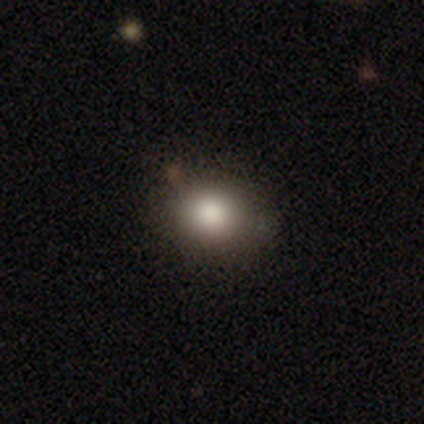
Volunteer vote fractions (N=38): A smooth galaxy with no disk features (89%) that is round (68%).

Vote fractions:
- Smooth or featured? smooth: 89% / featured or disk: 5% / star or artifact: 5%
- How rounded? round: 68% / in between: 32% / cigar-shaped: 0%
- Merging? none: 50% / merger: 8% / minor disturbance: 6% / major disturbance: 0%